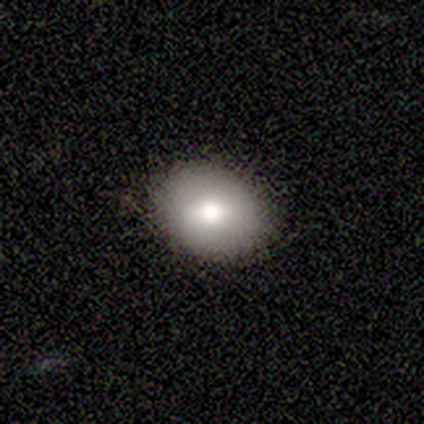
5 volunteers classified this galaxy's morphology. Smooth or featured? 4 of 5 (80%) said smooth. How rounded? 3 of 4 (75%) said round. Merging? 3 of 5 (60%) said none.